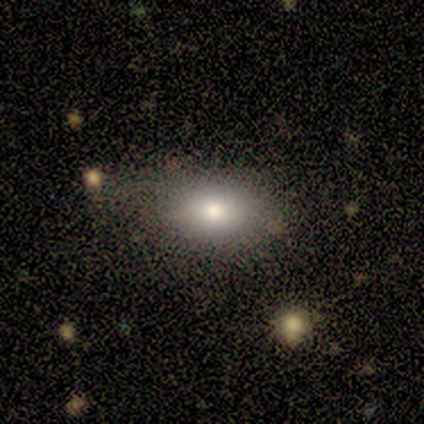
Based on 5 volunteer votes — Smooth or featured?
  - smooth: 100% *
  - featured or disk: 0%
  - star or artifact: 0%
How rounded?
  - in between: 100% *
  - round: 0%
  - cigar-shaped: 0%
Merging?
  - none: 80% *
  - minor disturbance: 20%
  - major disturbance: 0%
  - merger: 0%